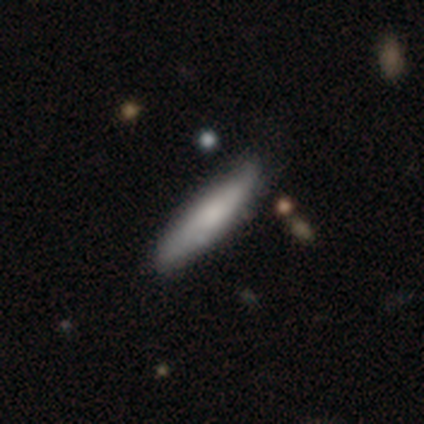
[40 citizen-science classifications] Q: Smooth or featured?
A: smooth (65%); runner-up: featured or disk (35%)
Q: How rounded?
A: cigar-shaped (92%); runner-up: in between (8%)
Q: Merging?
A: none (75%); runner-up: minor disturbance (20%)